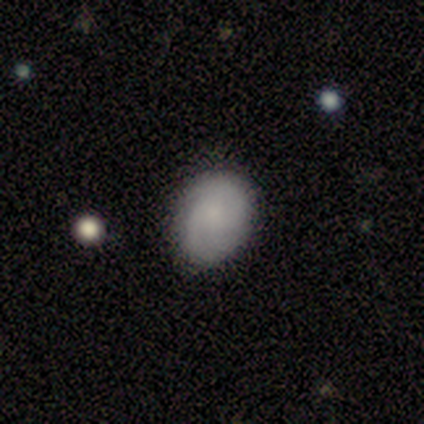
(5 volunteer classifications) This is clearly a smooth galaxy (80%). How rounded: possibly in between (50%). Merging: clearly none (80%).